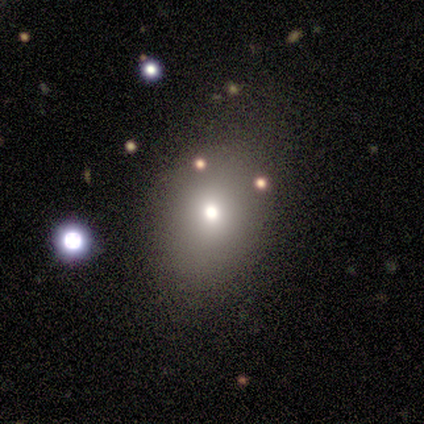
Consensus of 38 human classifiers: This appears to be a smooth galaxy with no disk features (61%) that is in between round and cigar-shaped (61%). Merging: none (90%).